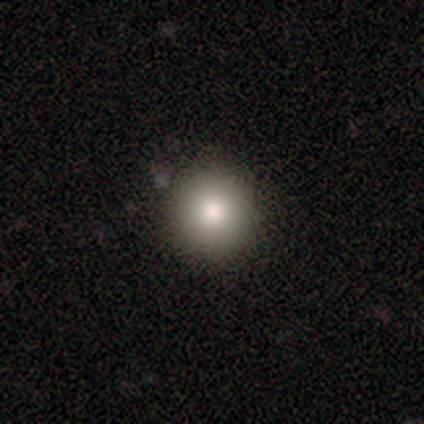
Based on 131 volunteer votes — Smooth or featured? 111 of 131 (85%) said smooth. How rounded? 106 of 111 (95%) said round. Merging? 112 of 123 (91%) said none.